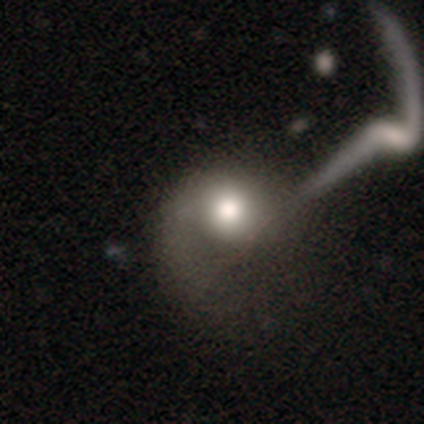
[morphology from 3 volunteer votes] This is likely a featured or disk galaxy (67%). It is clearly not viewed edge-on (100%). Bar: clearly no (100%). Spiral arm pattern: clearly yes (100%). Spiral arm count: clearly 1 (100%). Spiral winding: possibly tight (50%, tied with loose). Central bulge: clearly moderate (100%). Merging: likely major disturbance (67%).